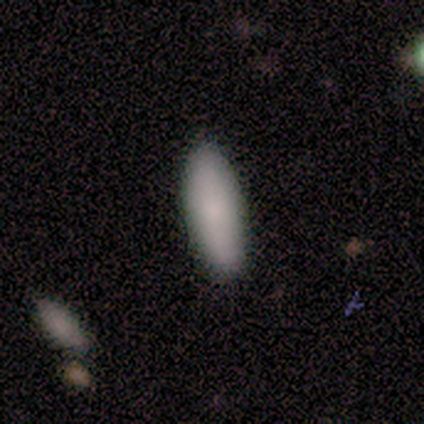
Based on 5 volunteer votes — A smooth galaxy with no disk features (80%) that is cigar-shaped (75%).

Vote fractions:
- Smooth or featured? smooth: 80% / featured or disk: 20% / star or artifact: 0%
- How rounded? cigar-shaped: 75% / in between: 25% / round: 0%
- Merging? none: 80% / major disturbance: 20% / minor disturbance: 0% / merger: 0%